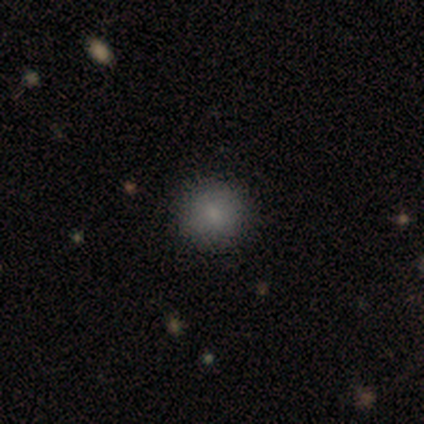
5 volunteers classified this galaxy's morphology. Smooth or featured?
  - smooth: 60% *
  - featured or disk: 20%
  - star or artifact: 20%
How rounded?
  - round: 100% *
  - in between: 0%
  - cigar-shaped: 0%
Merging?
  - none: 100% *
  - minor disturbance: 0%
  - major disturbance: 0%
  - merger: 0%